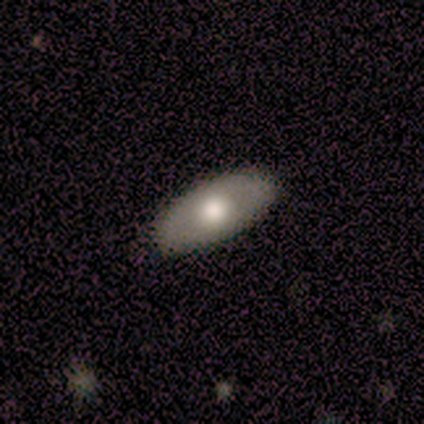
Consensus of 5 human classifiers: Smooth or featured? smooth (100%)
How rounded? in between (100%)
Merging? none (100%)